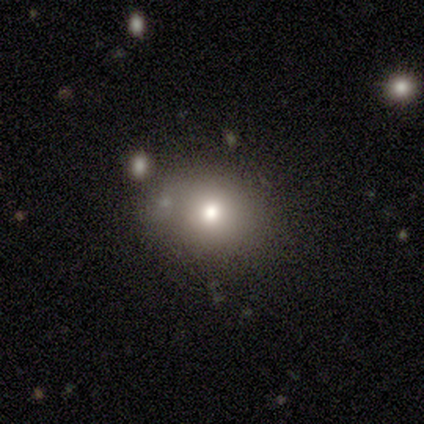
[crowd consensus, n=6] Volunteers were most divided on "merging": none: 60%, minor disturbance: 20%, merger: 20%, major disturbance: 0%. More confident: how rounded — round (75%); smooth or featured — smooth (67%).